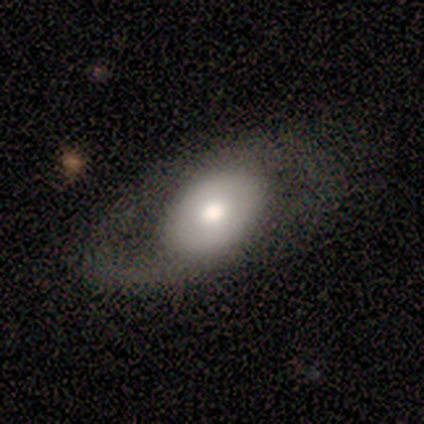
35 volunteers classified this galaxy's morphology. Smooth or featured?
  - featured or disk: 49% *
  - smooth: 40%
  - star or artifact: 11%
Edge-on disk?
  - no: 76% *
  - yes: 24%
Bar?
  - no: 69% *
  - weak: 23%
  - strong: 8%
Spiral arms?
  - yes: 54% *
  - no: 46%
Spiral winding?
  - medium: 86% *
  - tight: 14%
  - loose: 0%
Spiral arm count?
  - 2: 71% *
  - 1: 29%
  - 3: 0%
  - 4: 0%
  - more than 4: 0%
  - can't tell: 0%
Bulge size?
  - moderate: 85% *
  - small: 8%
  - none: 8%
  - dominant: 0%
  - large: 0%
Merging?
  - none: 68% *
  - minor disturbance: 19%
  - major disturbance: 13%
  - merger: 0%